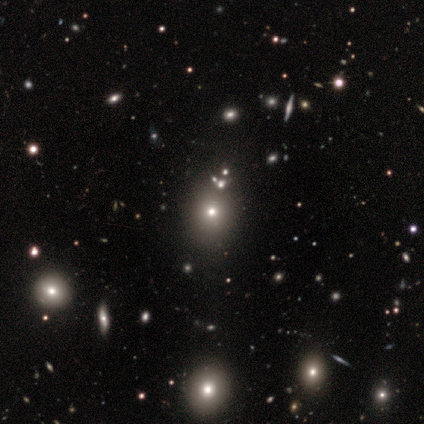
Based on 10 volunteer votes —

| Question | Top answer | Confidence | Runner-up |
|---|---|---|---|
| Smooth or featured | star or artifact | 50% | smooth (40%) |